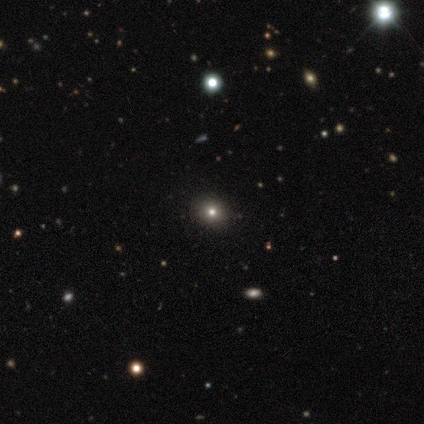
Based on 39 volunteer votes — This is possibly a star or artifact rather than a galaxy (46%).